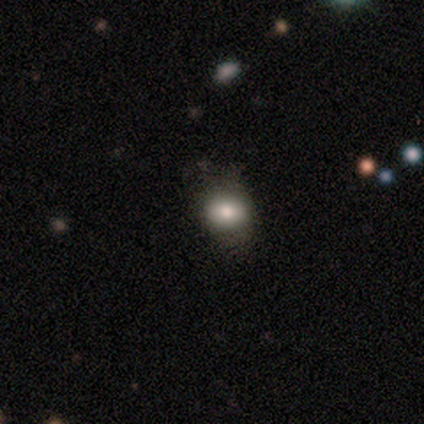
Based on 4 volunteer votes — This is likely a smooth galaxy (75%). How rounded: clearly round (100%). Merging: likely none (75%).